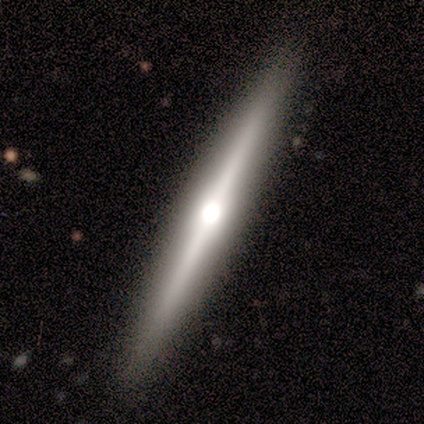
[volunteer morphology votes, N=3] This is clearly a featured or disk galaxy (100%). It is clearly viewed edge-on (100%). Edge-on bulge: clearly rounded (100%). Merging: clearly none (100%).